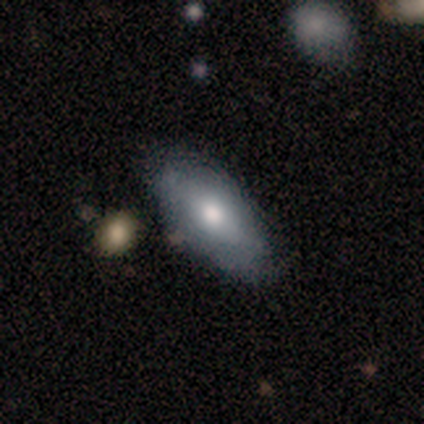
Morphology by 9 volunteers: type=smooth (67%); roundness=in between (100%); merging=none (50%).